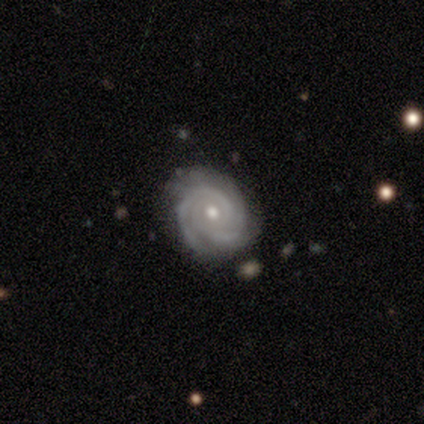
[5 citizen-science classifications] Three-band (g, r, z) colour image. It shows a featured or disk galaxy (100%) with no bar (80%), 2 (80%) tight (80%) spiral arms (100%) and a small central bulge (60%). Merging: none (60%).